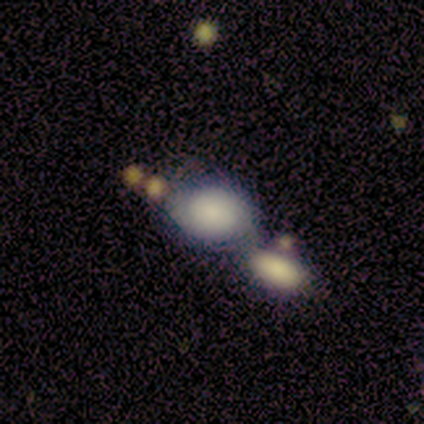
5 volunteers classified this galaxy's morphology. A smooth galaxy with no disk features (80%) that is in between round and cigar-shaped (75%). Merging: none (80%).